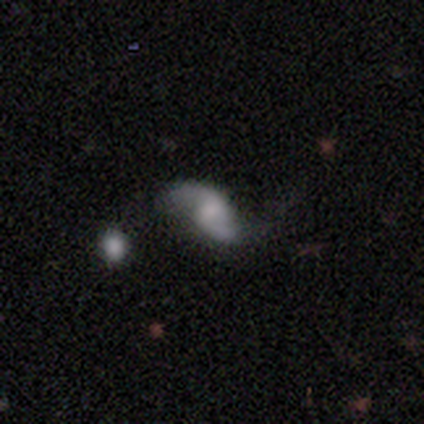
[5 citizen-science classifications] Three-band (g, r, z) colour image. It shows a featured or disk galaxy (80%) with a weak bar (50%, tied with no), 2 (100%) loose (75%) spiral arms (100%) and a small central bulge (75%). Merging: none (80%).